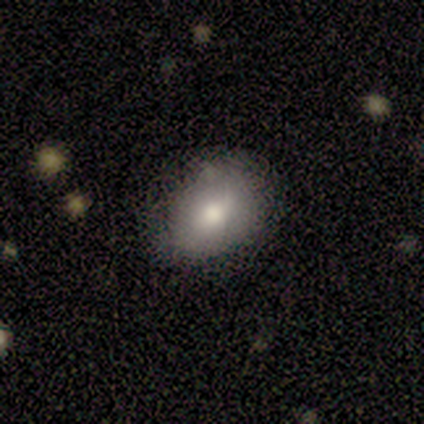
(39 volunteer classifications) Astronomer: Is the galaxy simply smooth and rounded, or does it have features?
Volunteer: smooth — 62%.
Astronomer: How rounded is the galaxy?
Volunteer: in between — 92%.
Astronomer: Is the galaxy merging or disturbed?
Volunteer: none — 74%.